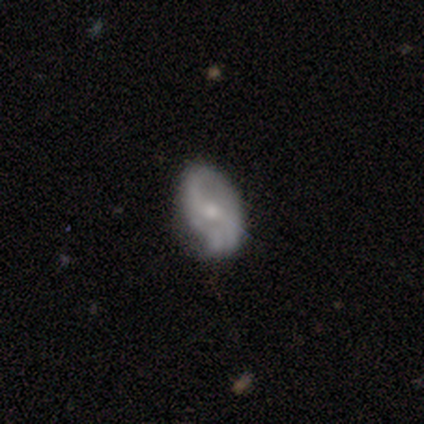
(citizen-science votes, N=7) A featured or disk galaxy (71%) with no bar (60%), 2 (100%) loose (75%) spiral arms (80%) and a small central bulge (80%).

Vote fractions:
- Smooth or featured? featured or disk: 71% / smooth: 29% / star or artifact: 0%
- Edge-on disk? no: 100% / yes: 0%
- Bar? no: 60% / weak: 40% / strong: 0%
- Spiral arms? yes: 80% / no: 20%
- Spiral winding? loose: 75% / medium: 25% / tight: 0%
- Spiral arm count? 2: 100% / 1: 0% / 3: 0% / 4: 0% / more than 4: 0% / can't tell: 0%
- Bulge size? small: 80% / moderate: 20% / dominant: 0% / large: 0% / none: 0%
- Merging? none: 86% / minor disturbance: 14% / major disturbance: 0% / merger: 0%